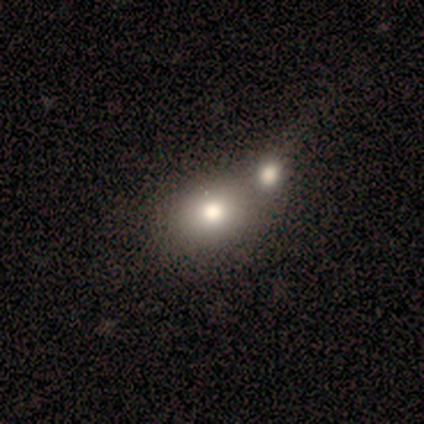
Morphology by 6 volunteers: smooth-or-featured: smooth: 83% | featured or disk: 17% | star or artifact: 0%
  how-rounded: round: 60% | in between: 40% | cigar-shaped: 0%
  merging: none: 50% (tied) | merger: 50% (tied) | minor disturbance: 0% | major disturbance: 0%